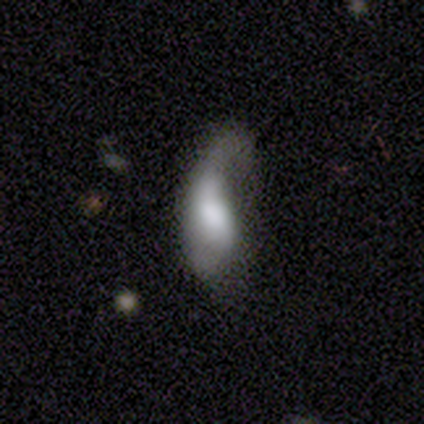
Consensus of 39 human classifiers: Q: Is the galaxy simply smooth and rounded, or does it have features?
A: smooth — 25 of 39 (64%).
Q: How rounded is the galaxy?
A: in between — 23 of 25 (92%).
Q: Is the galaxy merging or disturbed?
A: major disturbance — 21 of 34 (62%).